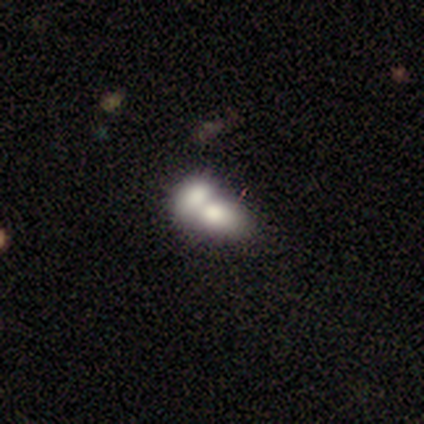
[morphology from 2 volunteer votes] This is possibly a smooth galaxy (50%, tied with featured or disk). How rounded: clearly in between (100%). Merging: clearly merger (100%).